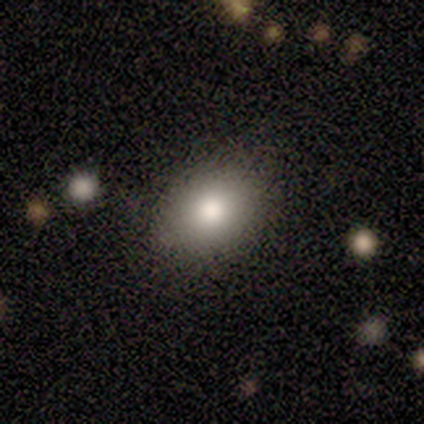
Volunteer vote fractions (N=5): This appears to be a smooth galaxy with no disk features (60%) that is round (67%). Merging: none (100%).